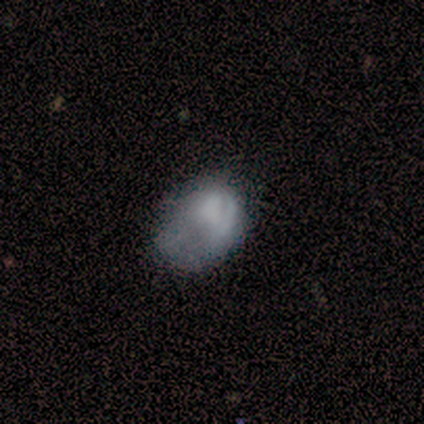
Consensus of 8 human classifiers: Smooth or featured: smooth — 75% (featured or disk — 25%)
How rounded: in between — 100%
Merging: major disturbance — 50% (minor disturbance — 38%)